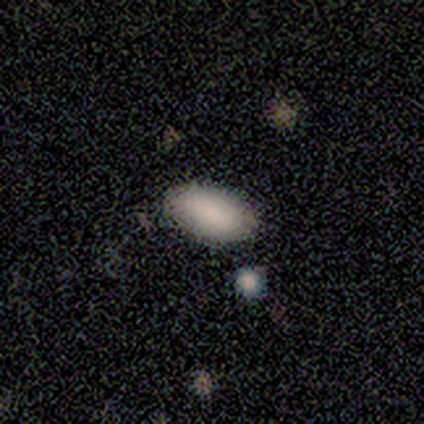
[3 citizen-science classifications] smooth 100%, featured or disk 0%, star or artifact 0%. Down the decision tree: how rounded — in between (100%); merging — none (100%).